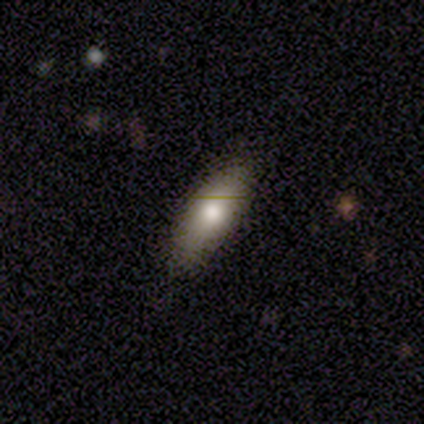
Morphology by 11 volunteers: Volunteers were most divided on "how rounded": in between: 60%, cigar-shaped: 40%, round: 0%. More confident: smooth or featured — smooth (91%); merging — none (91%).